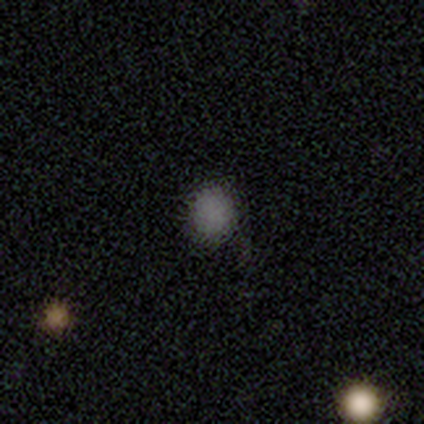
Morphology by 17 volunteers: A smooth galaxy with no disk features (71%) that is round (83%). Merging: none (86%).